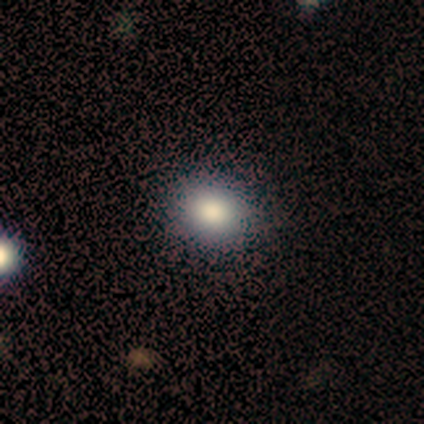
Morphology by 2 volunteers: type=smooth (100%); roundness=round (50%, tied with in between); merging=none (100%).